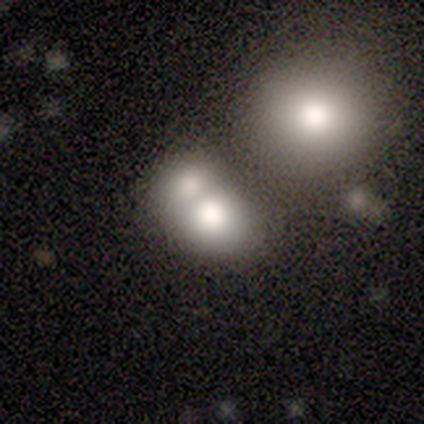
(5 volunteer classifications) A smooth galaxy with no disk features (40%, tied with featured or disk) that is round (50%, tied with in between). Merging: none (50%, tied with merger).